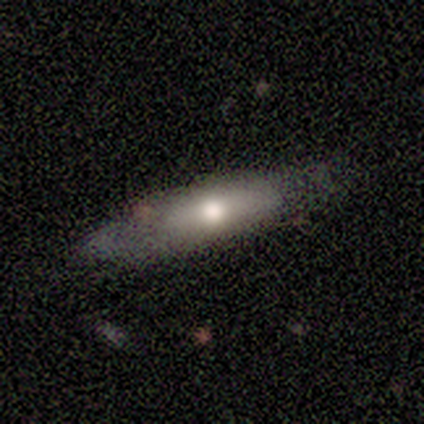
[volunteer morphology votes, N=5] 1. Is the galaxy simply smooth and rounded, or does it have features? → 60% smooth, 40% featured or disk, 0% star or artifact.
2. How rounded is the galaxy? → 67% in between, 33% cigar-shaped, 0% round.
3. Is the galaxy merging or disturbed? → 60% none, 40% minor disturbance, 0% major disturbance, 0% merger.